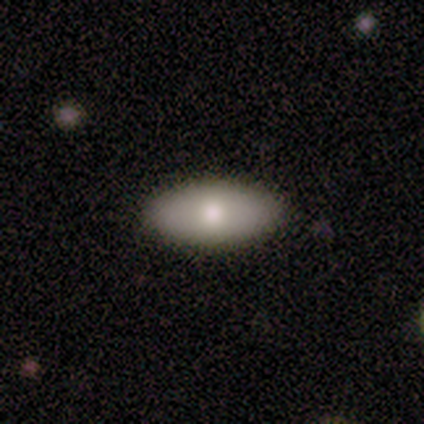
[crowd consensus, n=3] A smooth galaxy with no disk features (100%) that is in between round and cigar-shaped (100%). Merging: none (67%).